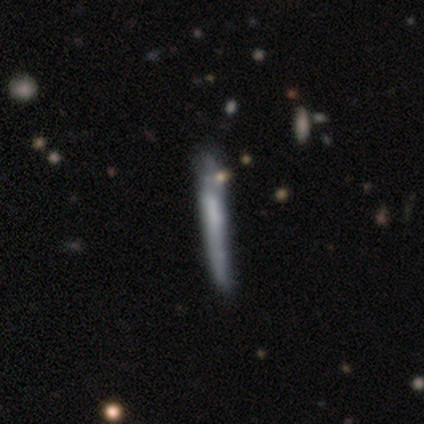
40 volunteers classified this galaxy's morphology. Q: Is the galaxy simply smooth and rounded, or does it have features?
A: featured or disk — 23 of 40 (57%).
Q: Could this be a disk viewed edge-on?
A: yes — 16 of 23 (70%).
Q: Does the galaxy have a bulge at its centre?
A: boxy — 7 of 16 (44%, tied with none).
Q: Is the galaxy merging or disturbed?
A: none — 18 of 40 (45%).